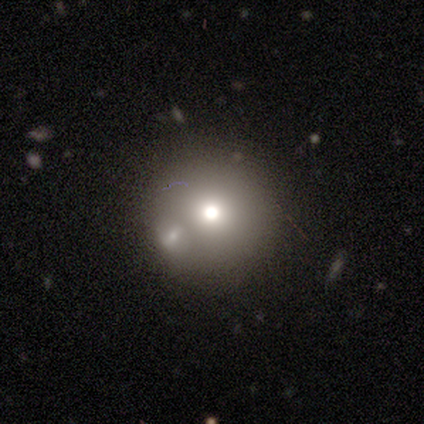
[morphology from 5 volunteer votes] Volunteers were most divided on "smooth or featured" (2-way tie): smooth: 40%, featured or disk: 40%, star or artifact: 20%. More confident: how rounded — round (100%); merging — merger (75%).